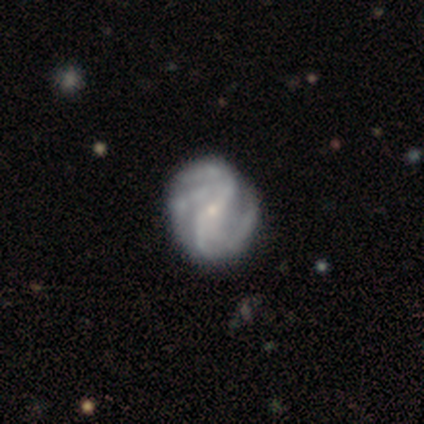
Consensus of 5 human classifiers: This appears to be a featured or disk galaxy (80%) with a weak bar (50%), 2 (75%) medium (50%, tied with loose) spiral arms (100%) and a small central bulge (100%). Merging: none (80%).